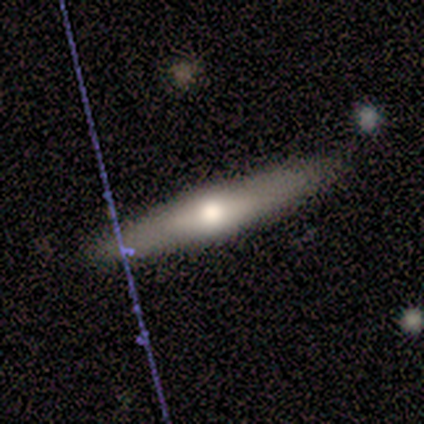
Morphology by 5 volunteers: Smooth or featured: featured or disk — 60% (smooth — 40%)
Edge-on disk: yes — 100%
Edge-on bulge: rounded — 100%
Merging: none — 80% (merger — 20%)